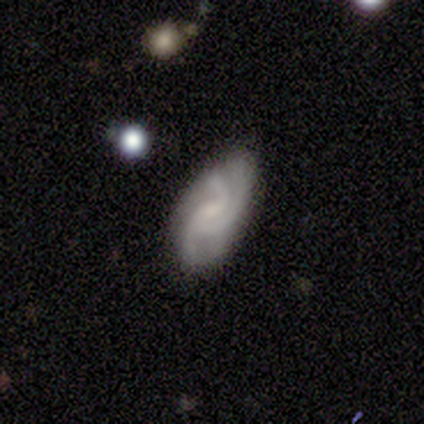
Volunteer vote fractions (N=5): Smooth or featured: featured or disk — 80% (smooth — 20%)
Edge-on disk: no — 100%
Bar: no — 75% (weak — 25%)
Spiral arms: yes — 50% (tied with no — 50%)
Spiral winding: medium — 100%
Spiral arm count: 3 — 100%
Bulge size: none — 50% (moderate — 25%)
Merging: none — 60% (minor disturbance — 20%)